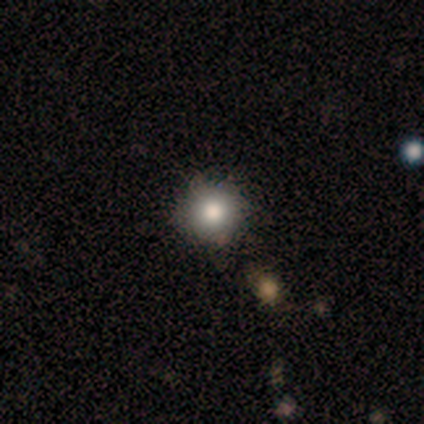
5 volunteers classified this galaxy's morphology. Volunteers were most divided on "smooth or featured": smooth: 80%, star or artifact: 20%, featured or disk: 0%. More confident: how rounded — round (100%); merging — none (100%).